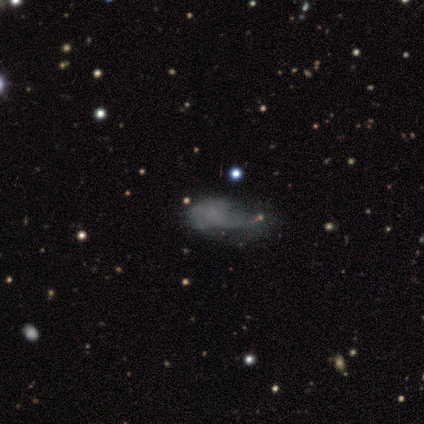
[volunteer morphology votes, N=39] Q: Smooth or featured?
A: smooth (46%); runner-up: featured or disk (36%)
Q: How rounded?
A: in between (89%); runner-up: cigar-shaped (11%)
Q: Merging?
A: major disturbance (47%); runner-up: minor disturbance (28%)